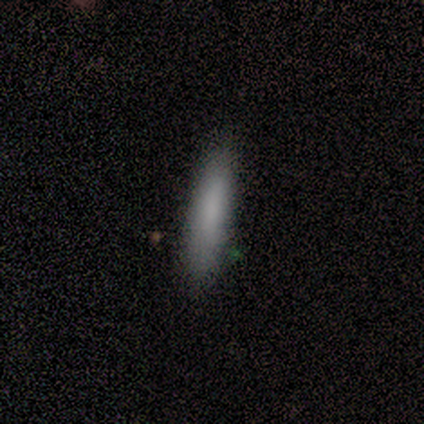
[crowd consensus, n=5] This is clearly a smooth galaxy (100%). How rounded: likely cigar-shaped (60%). Merging: clearly none (100%).